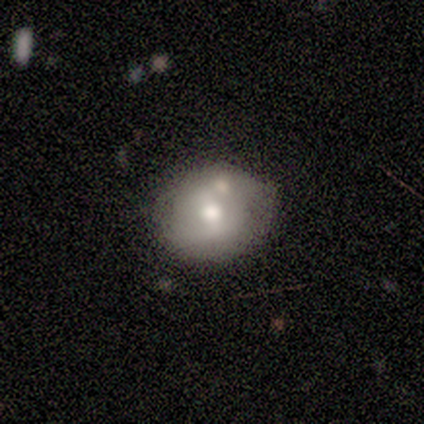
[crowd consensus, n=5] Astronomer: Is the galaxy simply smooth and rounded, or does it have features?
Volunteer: featured or disk — 80%.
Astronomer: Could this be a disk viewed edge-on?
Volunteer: no — 75%.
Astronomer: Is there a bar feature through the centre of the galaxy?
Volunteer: strong — 33%, tied with weak and no at 33%.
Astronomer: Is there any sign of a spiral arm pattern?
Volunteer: yes — 100%.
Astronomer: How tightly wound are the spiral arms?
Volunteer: loose — 67%.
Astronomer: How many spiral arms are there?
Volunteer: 2 — 67%.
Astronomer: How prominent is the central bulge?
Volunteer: moderate — 67%.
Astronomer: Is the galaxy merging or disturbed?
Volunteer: none — 50%.